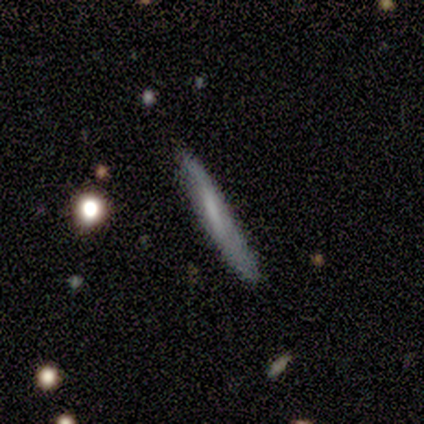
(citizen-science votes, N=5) Morphology: type=smooth (60%); roundness=cigar-shaped (100%); merging=none (100%).